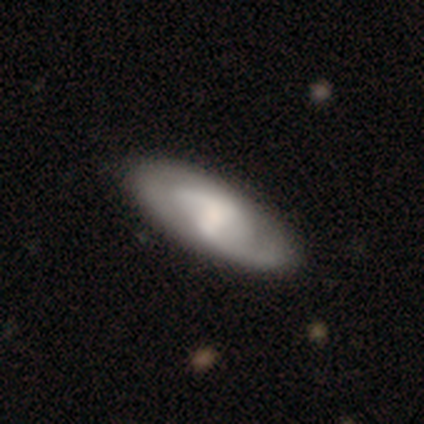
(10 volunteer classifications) Morphology: type=featured or disk (90%); edge-on=no (89%); bar=no (62%); spiral arms=yes (75%); winding=tight (50%); arm count=2 (100%); bulge=small (62%); merging=none (80%).